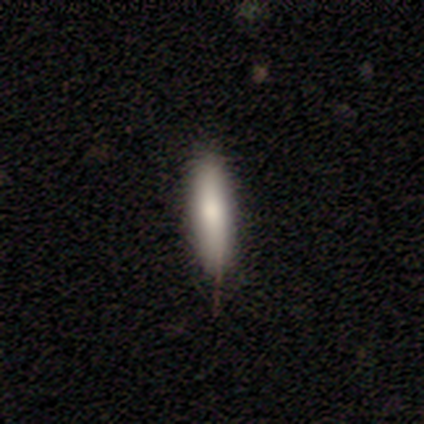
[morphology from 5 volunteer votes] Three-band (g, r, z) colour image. It shows a smooth galaxy with no disk features (80%) that is cigar-shaped (75%). Merging: none (80%).